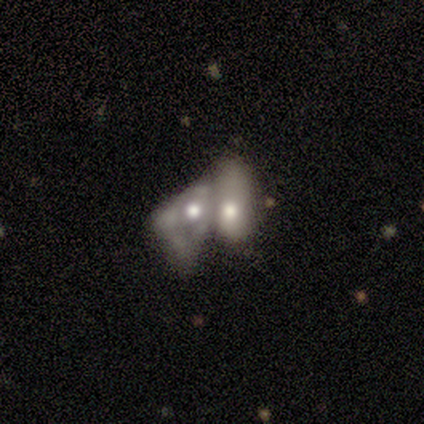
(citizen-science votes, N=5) Smooth or featured: smooth — 80% (featured or disk — 20%)
How rounded: in between — 100%
Merging: merger — 80% (minor disturbance — 20%)